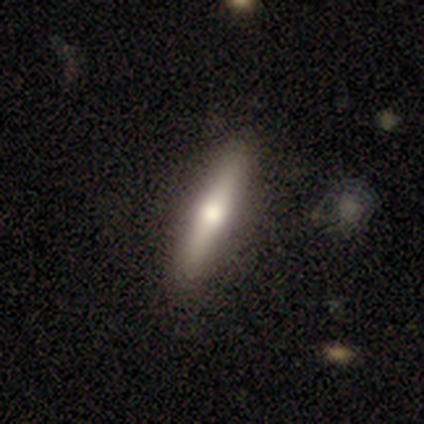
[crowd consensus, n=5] Smooth or featured: smooth — 60% (featured or disk — 40%)
How rounded: cigar-shaped — 100%
Merging: none — 80% (minor disturbance — 20%)